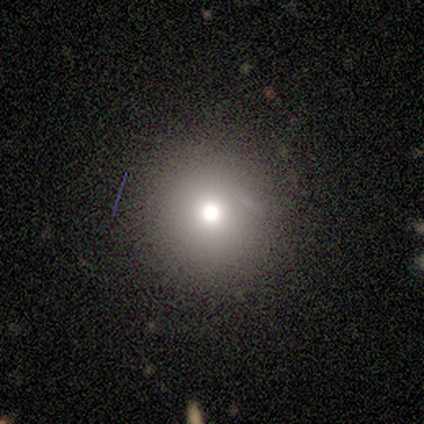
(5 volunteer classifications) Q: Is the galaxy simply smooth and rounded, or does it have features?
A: smooth — 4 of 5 (80%).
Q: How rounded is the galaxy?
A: round — 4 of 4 (100%).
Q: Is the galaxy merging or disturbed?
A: none — 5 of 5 (100%).